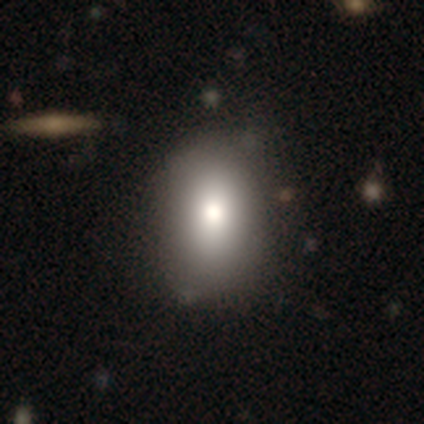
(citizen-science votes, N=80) This is clearly a smooth galaxy (85%). How rounded: likely in between (75%). Merging: marginally none (41%).